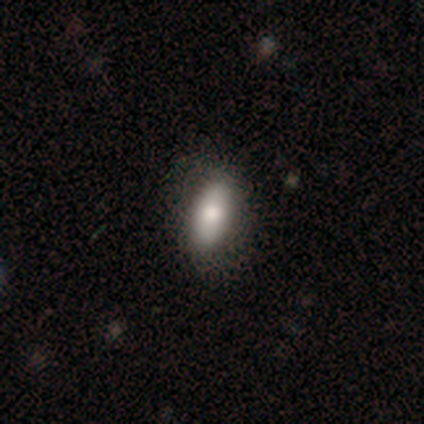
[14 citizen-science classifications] Smooth or featured? 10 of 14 (71%) said smooth. How rounded? 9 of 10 (90%) said in between. Merging? 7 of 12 (58%) said none.